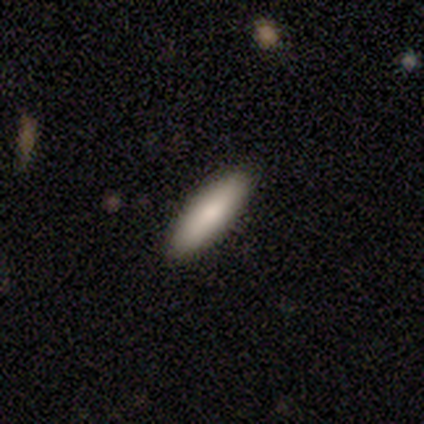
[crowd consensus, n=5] Smooth or featured? smooth (100%)
How rounded? in between (60%)
Merging? none (100%)